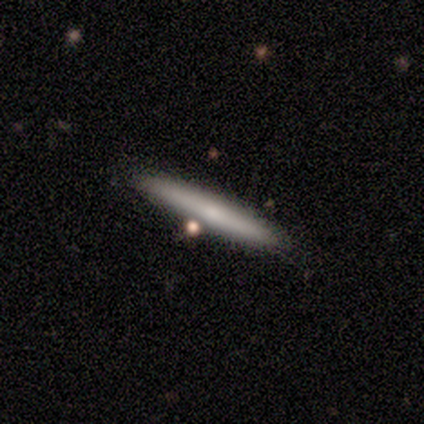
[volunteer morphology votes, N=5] This appears to be a smooth galaxy with no disk features (100%) that is cigar-shaped (100%). Merging: none (80%).